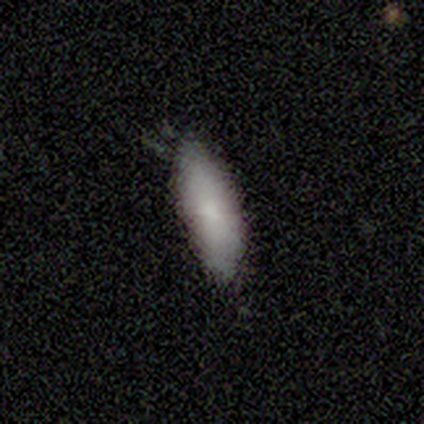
A smooth galaxy with no disk features (100%) that is in between round and cigar-shaped (60%). Merging: none (60%).